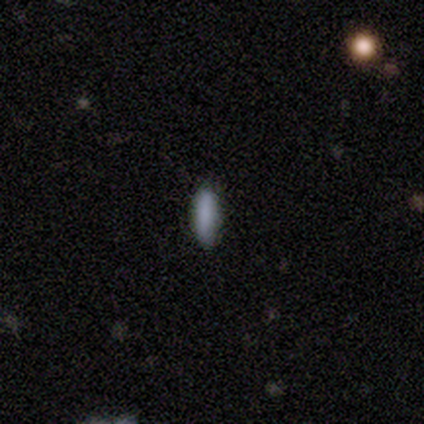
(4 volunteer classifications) A smooth galaxy with no disk features (100%) that is in between round and cigar-shaped (50%, tied with cigar-shaped). Merging: none (100%).